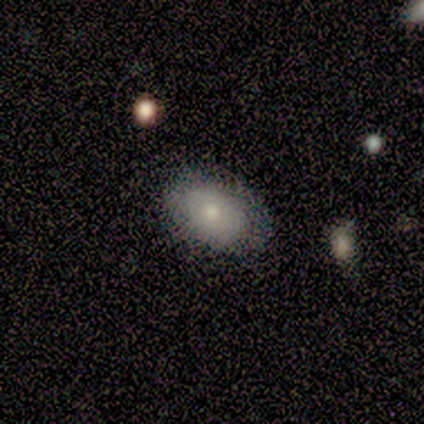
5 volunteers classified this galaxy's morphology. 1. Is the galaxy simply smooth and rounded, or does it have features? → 80% smooth, 20% featured or disk, 0% star or artifact.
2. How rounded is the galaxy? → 75% in between, 25% cigar-shaped, 0% round.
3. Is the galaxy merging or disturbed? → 80% none, 20% major disturbance, 0% minor disturbance, 0% merger.